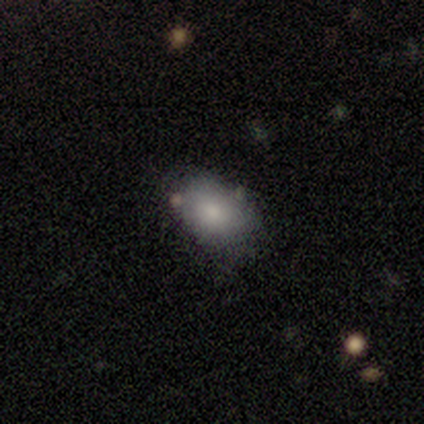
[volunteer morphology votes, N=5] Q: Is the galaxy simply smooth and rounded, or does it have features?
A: smooth — 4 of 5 (80%).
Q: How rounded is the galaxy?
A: in between — 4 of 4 (100%).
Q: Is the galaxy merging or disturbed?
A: none — 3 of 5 (60%).